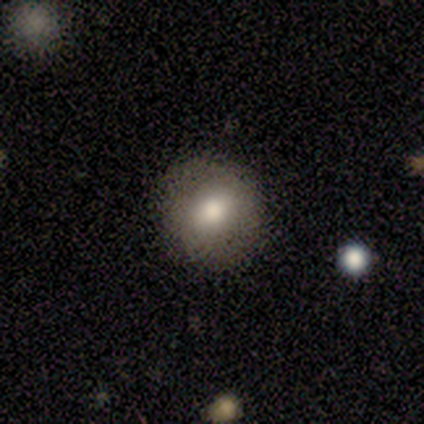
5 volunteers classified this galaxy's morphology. This is clearly a smooth galaxy (80%). How rounded: possibly round (50%, tied with in between). Merging: clearly none (100%).